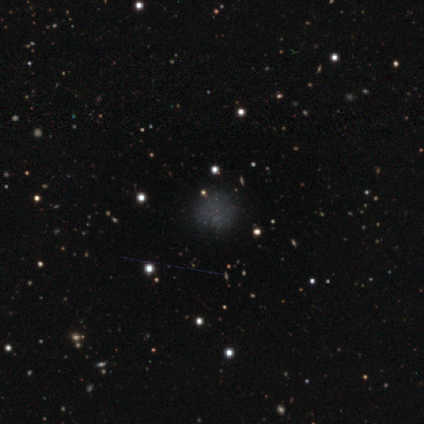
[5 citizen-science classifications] Q: Smooth or featured?
A: smooth (60%); runner-up: featured or disk (40%)
Q: How rounded?
A: round (100%)
Q: Merging?
A: none (100%)